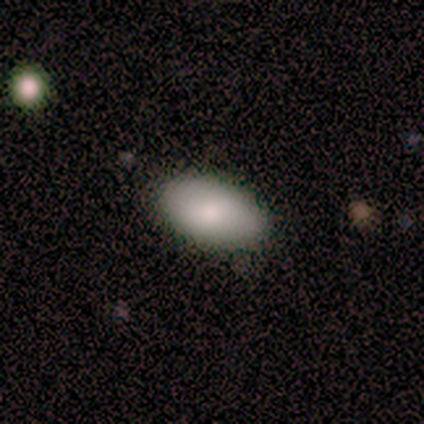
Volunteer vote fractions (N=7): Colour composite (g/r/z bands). It shows a smooth galaxy with no disk features (100%) that is in between round and cigar-shaped (100%). Merging: none (100%).